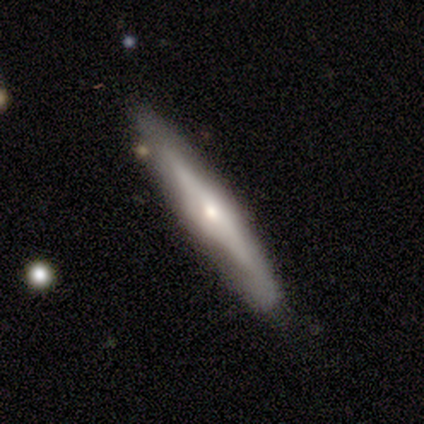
Smooth or featured?
  - featured or disk: 76% *
  - smooth: 24%
  - star or artifact: 0%
Edge-on disk?
  - yes: 86% *
  - no: 14%
Edge-on bulge?
  - rounded: 83% *
  - boxy: 17%
  - none: 0%
Merging?
  - none: 78% *
  - minor disturbance: 14%
  - merger: 5%
  - major disturbance: 3%